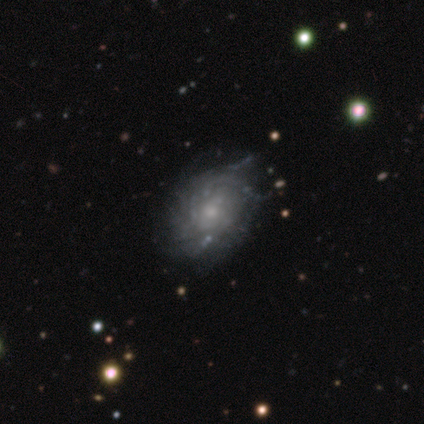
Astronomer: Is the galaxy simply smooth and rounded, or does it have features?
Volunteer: featured or disk — 100%.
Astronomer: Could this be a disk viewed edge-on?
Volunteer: no — 100%.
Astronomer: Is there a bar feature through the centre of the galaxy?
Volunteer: no — 80%.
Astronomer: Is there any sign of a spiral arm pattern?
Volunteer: yes — 60% (runner-up: no, 40%).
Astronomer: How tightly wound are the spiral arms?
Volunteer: tight — 67%.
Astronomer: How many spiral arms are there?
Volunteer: can't tell — 100%.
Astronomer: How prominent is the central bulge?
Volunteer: small — 80%.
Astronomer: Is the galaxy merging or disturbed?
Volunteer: none — 100%.